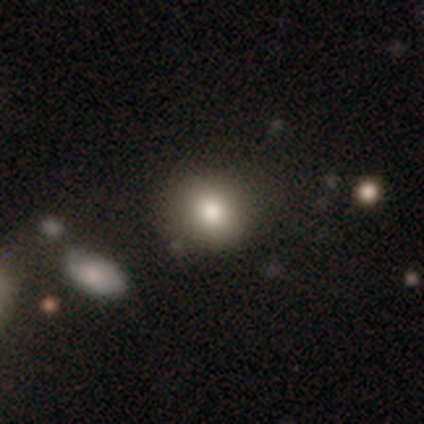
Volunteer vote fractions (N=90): Smooth or featured?
  - smooth: 76% *
  - featured or disk: 17%
  - star or artifact: 8%
How rounded?
  - round: 75% *
  - in between: 24%
  - cigar-shaped: 1%
Merging?
  - none: 76% *
  - minor disturbance: 14%
  - major disturbance: 6%
  - merger: 4%